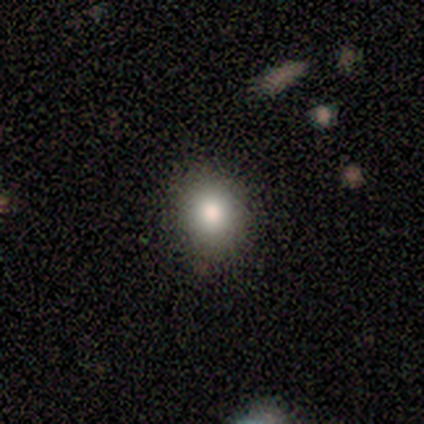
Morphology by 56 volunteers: smooth-or-featured: smooth: 82% | featured or disk: 12% | star or artifact: 5%
  how-rounded: round: 67% | in between: 33% | cigar-shaped: 0%
  merging: none: 91% | minor disturbance: 9% | major disturbance: 0% | merger: 0%